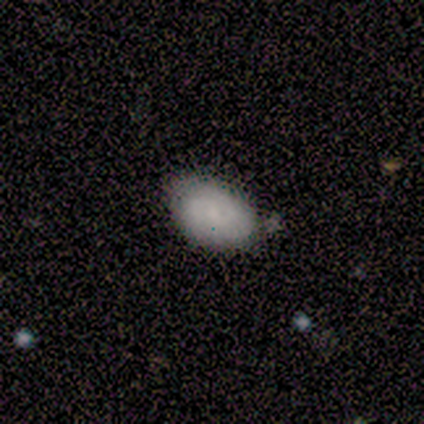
Smooth or featured: smooth — 100%
How rounded: in between — 100%
Merging: none — 80% (minor disturbance — 20%)